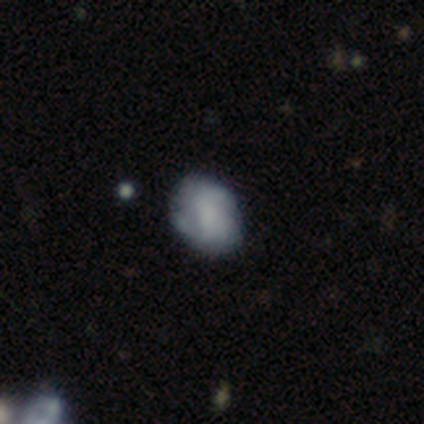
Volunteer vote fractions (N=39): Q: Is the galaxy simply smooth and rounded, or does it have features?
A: smooth — 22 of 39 (56%).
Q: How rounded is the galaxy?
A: round — 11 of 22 (50%, tied with in between).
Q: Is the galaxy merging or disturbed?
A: none — 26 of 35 (74%).